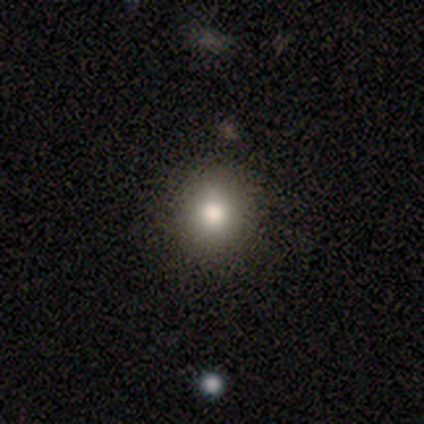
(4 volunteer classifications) Q: Smooth or featured?
A: smooth (75%); runner-up: star or artifact (25%)
Q: How rounded?
A: round (67%); runner-up: in between (33%)
Q: Merging?
A: none (100%)